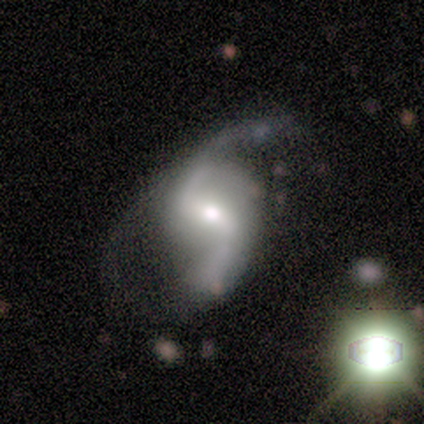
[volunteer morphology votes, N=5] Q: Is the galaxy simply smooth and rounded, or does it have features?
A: featured or disk — 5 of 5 (100%).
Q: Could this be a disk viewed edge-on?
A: no — 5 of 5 (100%).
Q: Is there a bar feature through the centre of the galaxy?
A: weak — 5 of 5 (100%).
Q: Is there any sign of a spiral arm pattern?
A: yes — 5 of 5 (100%).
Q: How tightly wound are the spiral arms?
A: loose — 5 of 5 (100%).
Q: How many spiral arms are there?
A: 2 — 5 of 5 (100%).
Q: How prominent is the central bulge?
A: small — 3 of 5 (60%).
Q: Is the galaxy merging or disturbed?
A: none — 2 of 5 (40%, tied with major disturbance).